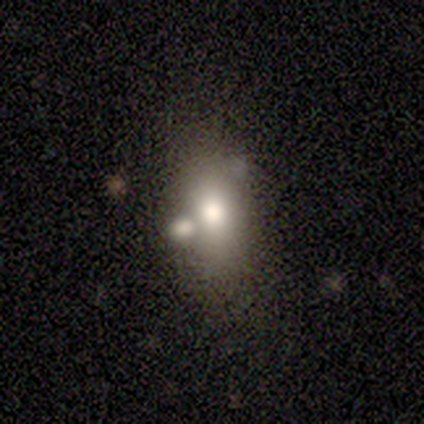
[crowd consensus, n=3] This is likely a star or artifact rather than a galaxy (67%).